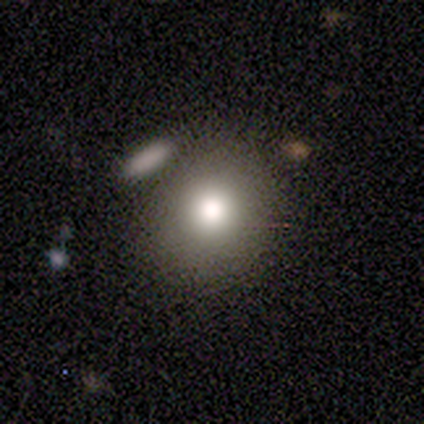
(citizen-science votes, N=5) Smooth or featured?
  - smooth: 100% *
  - featured or disk: 0%
  - star or artifact: 0%
How rounded?
  - round: 80% *
  - in between: 20%
  - cigar-shaped: 0%
Merging?
  - none: 80% *
  - merger: 20%
  - minor disturbance: 0%
  - major disturbance: 0%